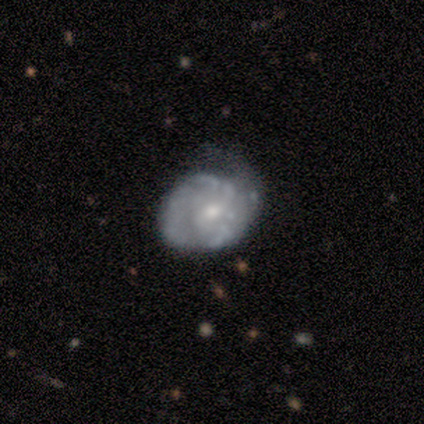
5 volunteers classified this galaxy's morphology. Q: Smooth or featured?
A: smooth (40%); tied with: featured or disk (40%)
Q: How rounded?
A: round (100%)
Q: Merging?
A: minor disturbance (100%)